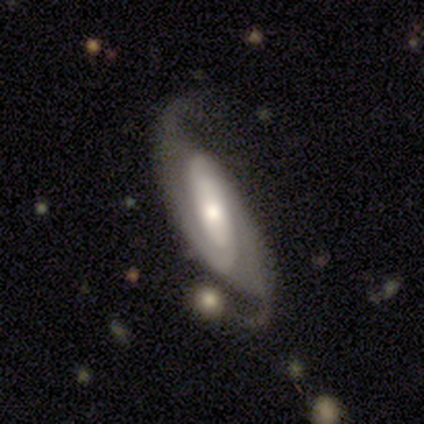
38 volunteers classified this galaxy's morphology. A featured or disk galaxy (89%) with no bar (44%), 2 (94%) medium (39%, tied with loose) spiral arms (97%) and a moderate central bulge (59%). Merging: none (59%).